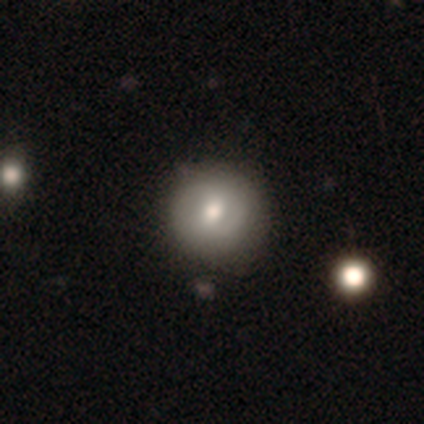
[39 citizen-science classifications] A smooth galaxy with no disk features (62%) that is round (96%). Merging: none (59%).